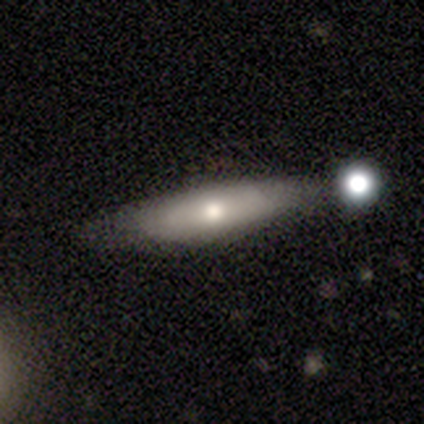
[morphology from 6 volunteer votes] smooth 50% (tied), featured or disk 50% (tied), star or artifact 0%. Down the decision tree: how rounded — cigar-shaped (100%); merging — none (67%).